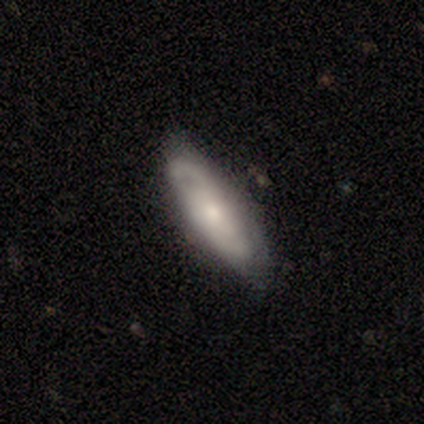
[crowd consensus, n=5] Volunteers were most divided on "smooth or featured": featured or disk: 60%, smooth: 40%, star or artifact: 0%. More confident: edge-on disk — no (100%); spiral arms — yes (100%); bulge size — moderate (100%); merging — none (80%); bar — weak (67%); spiral winding — medium (67%); spiral arm count — 2 (67%).